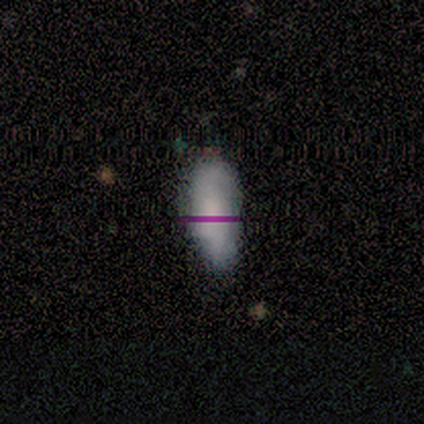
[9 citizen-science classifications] Overall: smooth (67%). How rounded: in between (83%). Merging: none (88%).